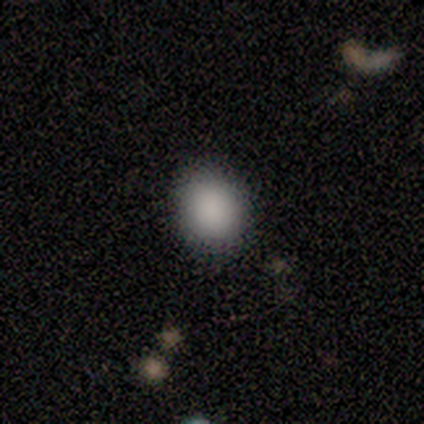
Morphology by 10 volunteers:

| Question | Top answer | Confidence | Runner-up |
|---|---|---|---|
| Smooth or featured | smooth | 90% | featured or disk (10%) |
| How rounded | round | 44% | tied: in between (44%) |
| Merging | none | 80% | minor disturbance (10%) |